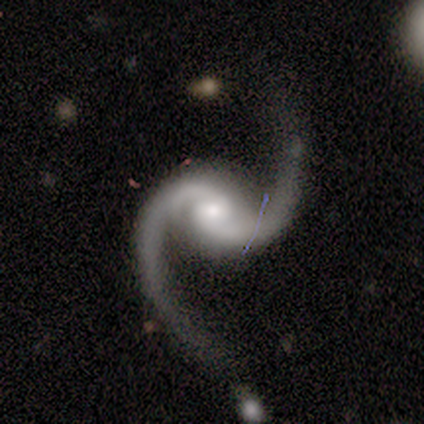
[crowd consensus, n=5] featured or disk 100%, smooth 0%, star or artifact 0%. Down the decision tree: edge-on disk — no (100%); bar — no (60%); spiral arms — yes (100%); spiral arm count — 2 (100%); spiral winding — loose (60%); bulge size — moderate (60%); merging — none (80%).